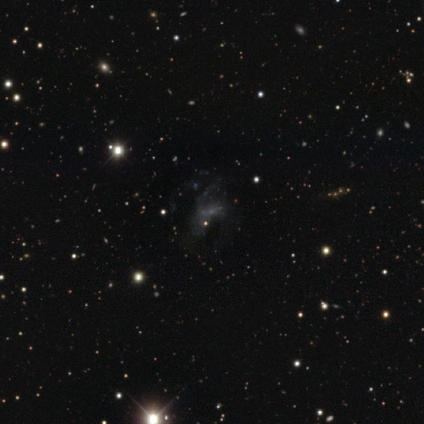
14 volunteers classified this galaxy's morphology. This is likely a featured or disk galaxy (64%). It is clearly not viewed edge-on (100%). Bar: likely no (78%). Spiral arm pattern: likely no (78%). Central bulge: likely none (78%). Merging: possibly none (50%).